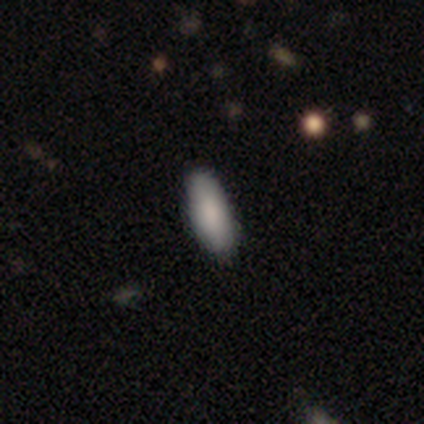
A smooth galaxy with no disk features (100%) that is in between round and cigar-shaped (100%). Merging: none (100%).